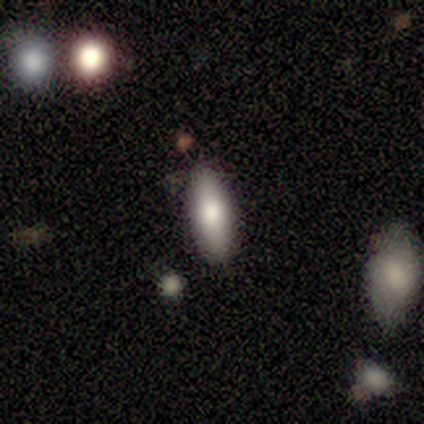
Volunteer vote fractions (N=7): smooth_or_featured: smooth (p=0.71) [alt: featured or disk p=0.14]
how_rounded: in between (p=0.80) [alt: cigar-shaped p=0.20]
merging: none (p=0.83) [alt: minor disturbance p=0.17]